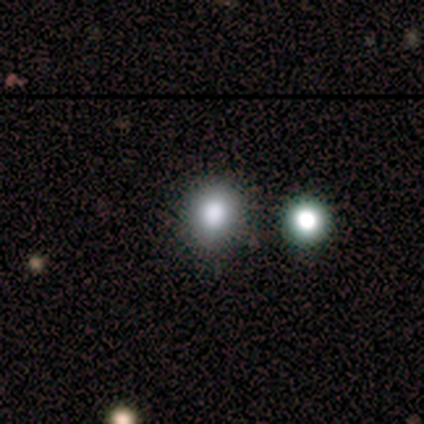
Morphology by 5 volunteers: Volunteers were most divided on "how rounded": round: 80%, in between: 20%, cigar-shaped: 0%. More confident: smooth or featured — smooth (100%); merging — none (80%).